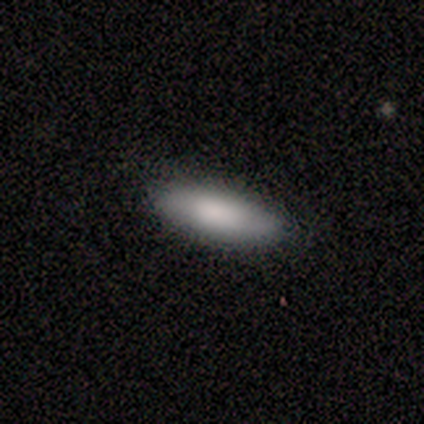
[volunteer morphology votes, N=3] Smooth or featured?
  - smooth: 67% *
  - featured or disk: 33%
  - star or artifact: 0%
How rounded?
  - in between: 50% * (tied)
  - cigar-shaped: 50% * (tied)
  - round: 0%
Merging?
  - none: 100% *
  - minor disturbance: 0%
  - major disturbance: 0%
  - merger: 0%